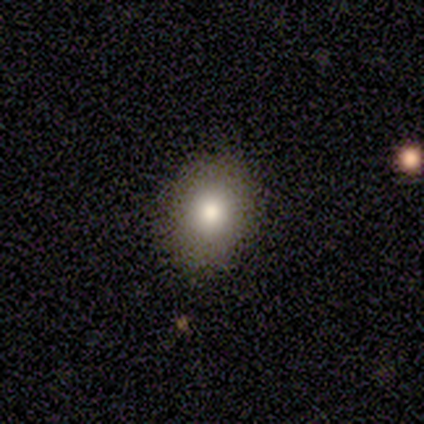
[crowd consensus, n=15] Q: Smooth or featured?
A: smooth (87%); runner-up: featured or disk (13%)
Q: How rounded?
A: in between (62%); runner-up: round (38%)
Q: Merging?
A: none (87%); runner-up: minor disturbance (13%)